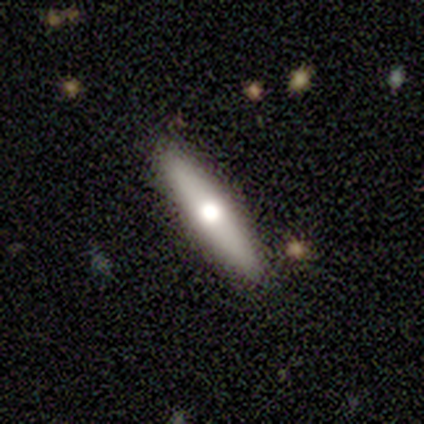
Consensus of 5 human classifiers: Morphology: type=smooth (60%); roundness=cigar-shaped (100%); merging=none (100%).